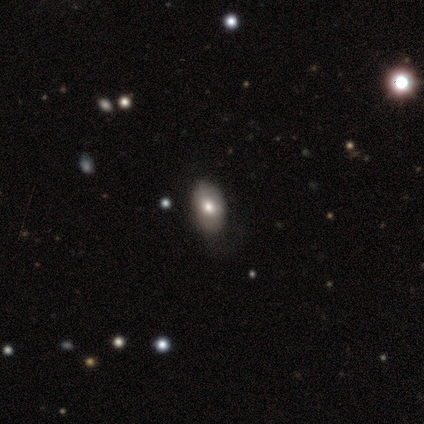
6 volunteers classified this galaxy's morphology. Smooth or featured? smooth (83%)
How rounded? in between (100%)
Merging? minor disturbance (60%)